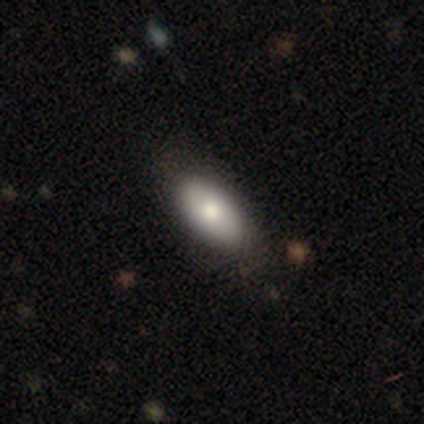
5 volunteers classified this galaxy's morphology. smooth_or_featured: smooth (p=0.60) [alt: featured or disk p=0.40]
how_rounded: in between (p=1.00)
merging: none (p=0.60) [alt: minor disturbance p=0.20]